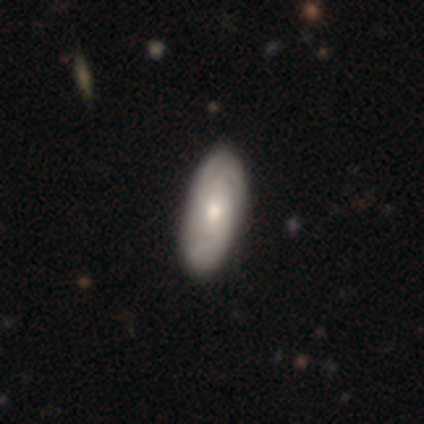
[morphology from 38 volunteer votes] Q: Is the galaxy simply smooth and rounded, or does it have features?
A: featured or disk — 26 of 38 (68%).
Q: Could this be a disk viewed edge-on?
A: no — 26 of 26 (100%).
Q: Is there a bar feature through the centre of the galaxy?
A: no — 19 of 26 (73%).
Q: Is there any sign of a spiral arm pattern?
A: yes — 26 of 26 (100%).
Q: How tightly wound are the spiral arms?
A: tight — 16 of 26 (62%).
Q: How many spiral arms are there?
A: can't tell — 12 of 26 (46%).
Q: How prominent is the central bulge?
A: moderate — 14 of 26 (54%).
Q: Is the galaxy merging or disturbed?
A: none — 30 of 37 (81%).